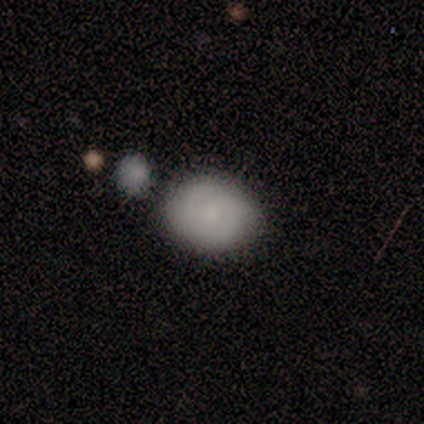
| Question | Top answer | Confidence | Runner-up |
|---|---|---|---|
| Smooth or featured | smooth | 50% | tied: featured or disk (50%) |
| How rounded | round | 67% | in between (33%) |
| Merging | none | 50% | merger (33%) |